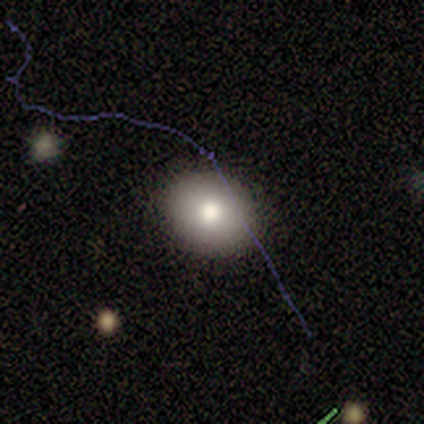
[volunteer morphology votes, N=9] type=smooth (67%); roundness=round (67%); merging=none (89%).